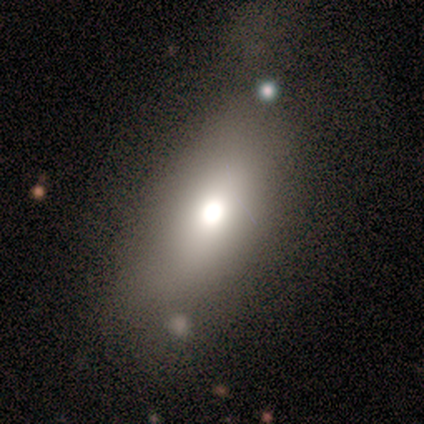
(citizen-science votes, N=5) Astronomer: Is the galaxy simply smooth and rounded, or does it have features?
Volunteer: smooth — 100%.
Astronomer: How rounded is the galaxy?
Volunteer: in between — 80%.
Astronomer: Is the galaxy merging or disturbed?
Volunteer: none — 80%.